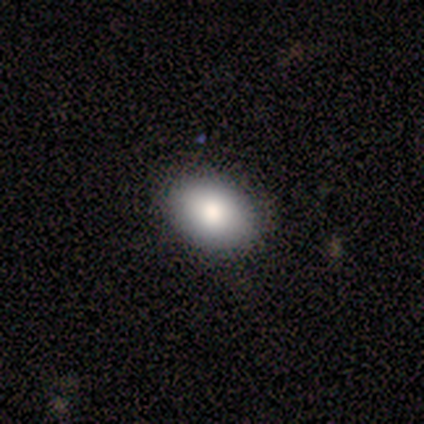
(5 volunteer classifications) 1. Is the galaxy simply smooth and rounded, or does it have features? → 80% smooth, 20% featured or disk, 0% star or artifact.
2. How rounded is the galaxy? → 75% in between, 25% round, 0% cigar-shaped.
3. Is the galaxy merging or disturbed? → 100% none, 0% minor disturbance, 0% major disturbance, 0% merger.